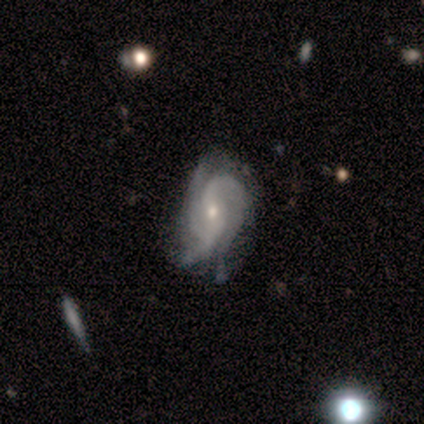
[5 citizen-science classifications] smooth_or_featured: featured or disk (p=0.80) [alt: star or artifact p=0.20]
disk_edge_on: no (p=1.00)
bar: no (p=0.75) [alt: weak p=0.25]
has_spiral_arms: yes (p=1.00)
spiral_winding: tight (p=0.75) [alt: medium p=0.25]
spiral_arm_count: 3 (p=0.50) [alt: 2 p=0.25]
bulge_size: small (p=0.75) [alt: moderate p=0.25]
merging: none (p=0.75) [alt: minor disturbance p=0.25]